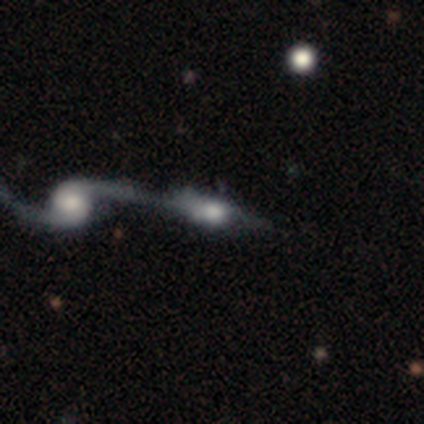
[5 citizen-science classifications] Smooth or featured? smooth (40%, tied with featured or disk)
How rounded? in between (50%, tied with cigar-shaped)
Merging? merger (100%)